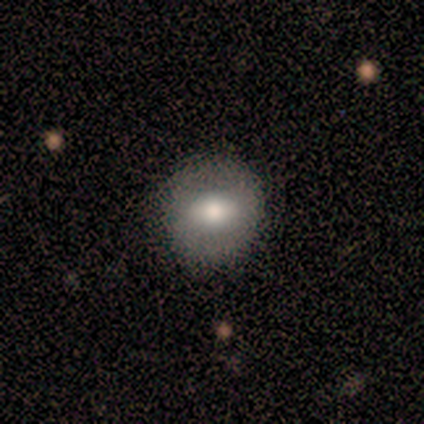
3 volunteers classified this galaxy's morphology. This appears to be a smooth galaxy with no disk features (67%) that is round (100%). Merging: none (100%).